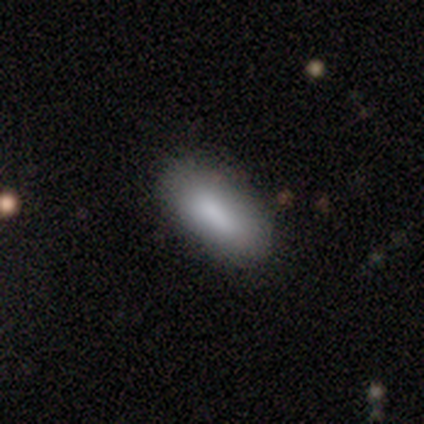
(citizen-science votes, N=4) smooth-or-featured: smooth: 75% | star or artifact: 25% | featured or disk: 0%
  how-rounded: in between: 100% | round: 0% | cigar-shaped: 0%
  merging: none: 100% | minor disturbance: 0% | major disturbance: 0% | merger: 0%